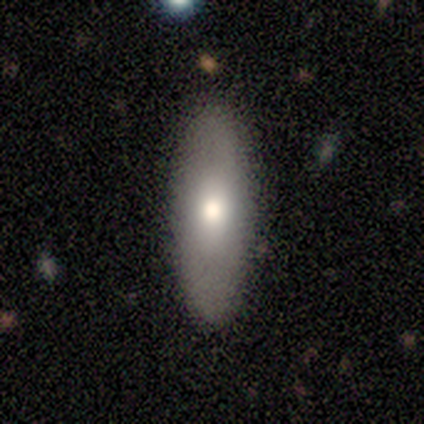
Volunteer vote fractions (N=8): Q: Smooth or featured?
A: smooth (75%); runner-up: featured or disk (25%)
Q: How rounded?
A: in between (67%); runner-up: cigar-shaped (33%)
Q: Merging?
A: none (100%)